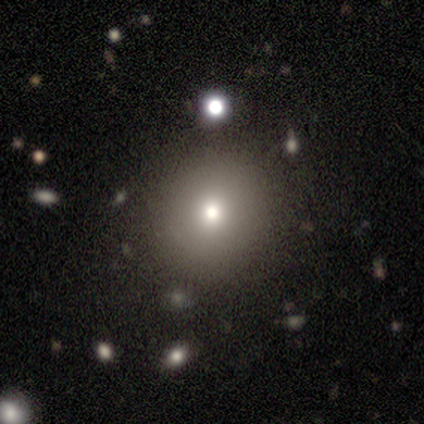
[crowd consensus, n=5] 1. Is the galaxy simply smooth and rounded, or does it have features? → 80% smooth, 20% star or artifact, 0% featured or disk.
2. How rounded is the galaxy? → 50% round (tied), 50% in between (tied), 0% cigar-shaped.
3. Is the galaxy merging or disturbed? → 100% none, 0% minor disturbance, 0% major disturbance, 0% merger.